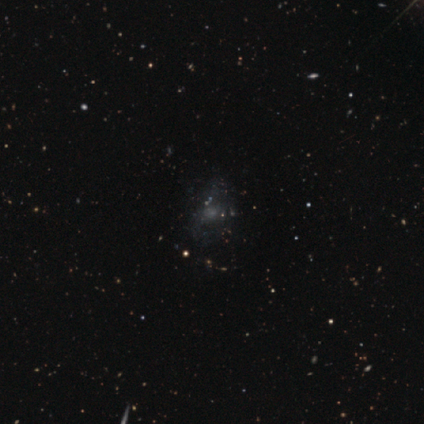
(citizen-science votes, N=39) featured or disk 54%, smooth 28%, star or artifact 18%. Down the decision tree: edge-on disk — no (100%); bar — no (95%); spiral arms — no (81%); bulge size — none (48%); merging — none (53%).